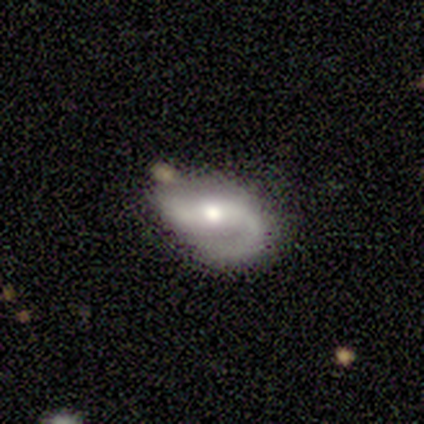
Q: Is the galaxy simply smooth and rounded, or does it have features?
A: featured or disk — 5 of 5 (100%).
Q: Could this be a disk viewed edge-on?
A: no — 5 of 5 (100%).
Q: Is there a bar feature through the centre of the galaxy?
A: strong — 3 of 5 (60%).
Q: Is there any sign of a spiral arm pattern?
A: yes — 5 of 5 (100%).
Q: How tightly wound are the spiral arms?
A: tight — 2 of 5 (40%, tied with medium).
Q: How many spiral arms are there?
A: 1 — 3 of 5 (60%).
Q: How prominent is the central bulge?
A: moderate — 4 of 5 (80%).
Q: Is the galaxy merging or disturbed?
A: none — 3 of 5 (60%).